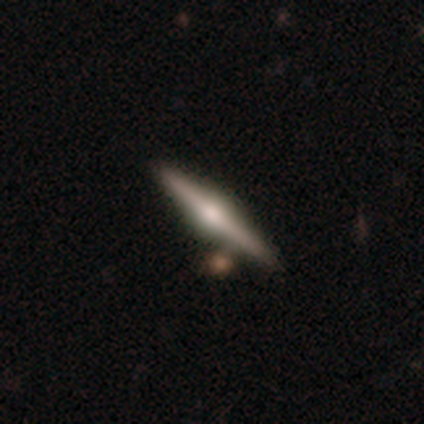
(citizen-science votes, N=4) smooth_or_featured: featured or disk (p=0.75) [alt: star or artifact p=0.25]
disk_edge_on: yes (p=1.00)
edge_on_bulge: rounded (p=1.00)
merging: none (p=0.67) [alt: minor disturbance p=0.33]